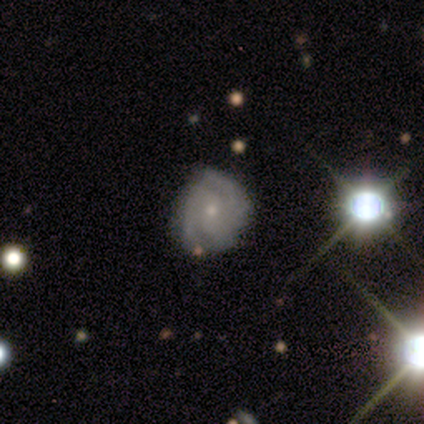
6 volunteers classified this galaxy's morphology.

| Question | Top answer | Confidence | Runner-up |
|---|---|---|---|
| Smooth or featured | featured or disk | 100% | — |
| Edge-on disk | no | 100% | — |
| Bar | no | 100% | — |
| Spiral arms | yes | 100% | — |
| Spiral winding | tight | 67% | medium (33%) |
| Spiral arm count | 2 | 50% | 3 (17%) |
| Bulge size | small | 83% | moderate (17%) |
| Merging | none | 83% | minor disturbance (17%) |